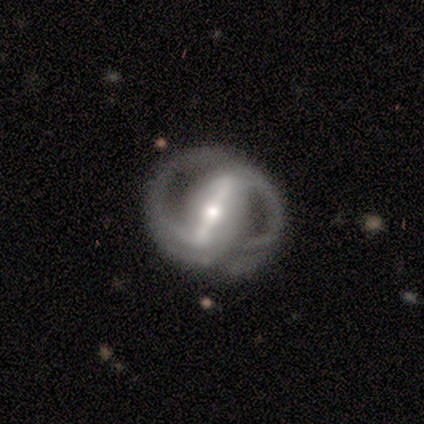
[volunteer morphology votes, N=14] featured or disk 93%, star or artifact 7%, smooth 0%. Down the decision tree: edge-on disk — no (92%); bar — strong (100%); spiral arms — yes (92%); spiral arm count — 2 (91%); spiral winding — tight (55%); bulge size — small (50%); merging — none (85%).